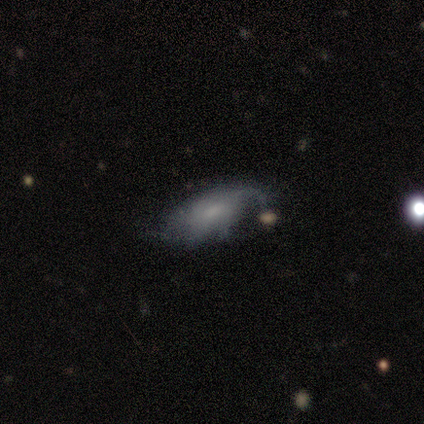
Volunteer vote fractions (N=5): A featured or disk galaxy (60%) with no bar (100%), medium (100%) spiral arms (100%) and a small central bulge (67%). Merging: minor disturbance (80%).